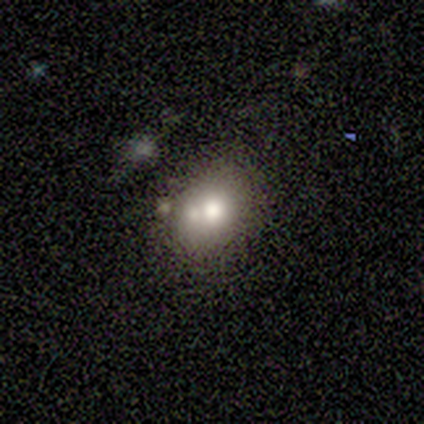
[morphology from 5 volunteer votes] This is likely a smooth galaxy (60%). How rounded: likely round (67%). Merging: likely none (75%).